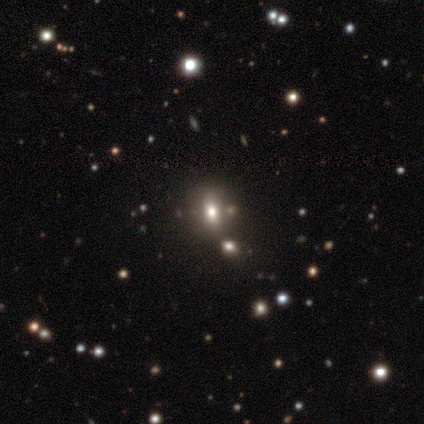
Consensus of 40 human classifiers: Q: Smooth or featured?
A: smooth (62%); runner-up: star or artifact (22%)
Q: How rounded?
A: in between (60%); runner-up: round (32%)
Q: Merging?
A: none (71%); runner-up: merger (16%)